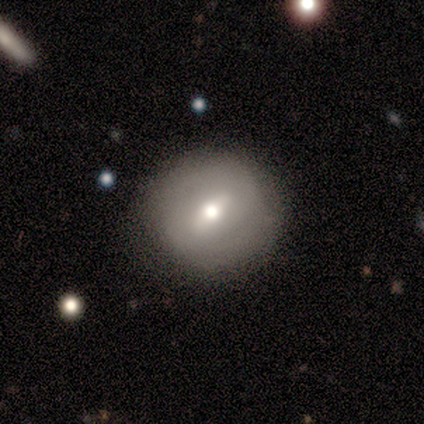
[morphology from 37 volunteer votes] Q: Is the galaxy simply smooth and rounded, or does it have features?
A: featured or disk — 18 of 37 (49%).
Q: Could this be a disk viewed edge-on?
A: no — 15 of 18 (83%).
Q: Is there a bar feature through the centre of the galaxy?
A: weak — 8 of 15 (53%).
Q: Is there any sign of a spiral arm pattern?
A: yes — 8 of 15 (53%).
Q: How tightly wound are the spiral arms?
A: tight — 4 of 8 (50%).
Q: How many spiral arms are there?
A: can't tell — 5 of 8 (62%).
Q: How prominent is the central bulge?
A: moderate — 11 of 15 (73%).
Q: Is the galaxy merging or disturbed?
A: none — 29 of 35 (83%).